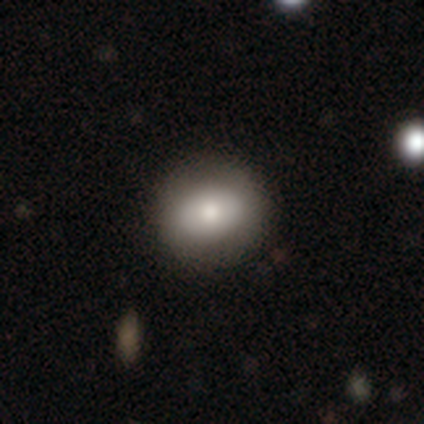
Overall: featured or disk (50%; smooth 25%). Edge-on disk: yes (50%, tied with no). Edge-on bulge: rounded (100%). Merging: none (67%; minor disturbance 33%).